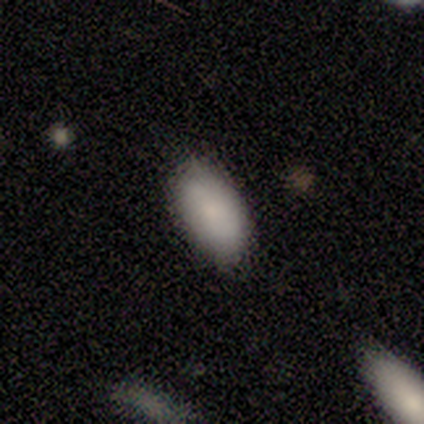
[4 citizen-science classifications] Smooth or featured?
  - smooth: 100% *
  - featured or disk: 0%
  - star or artifact: 0%
How rounded?
  - in between: 75% *
  - round: 25%
  - cigar-shaped: 0%
Merging?
  - none: 75% *
  - minor disturbance: 25%
  - major disturbance: 0%
  - merger: 0%